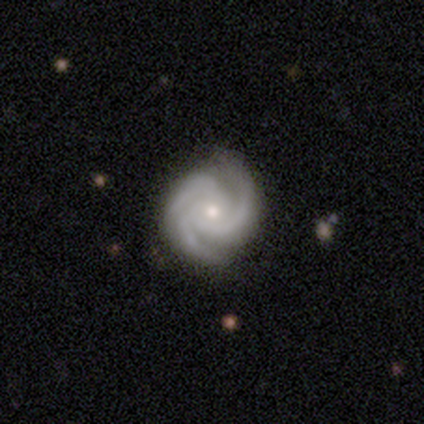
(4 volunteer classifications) This appears to be a featured or disk galaxy (100%) with no bar (100%), 3 (100%) tight (100%) spiral arms (100%) and a moderate central bulge (75%). Merging: none (100%).